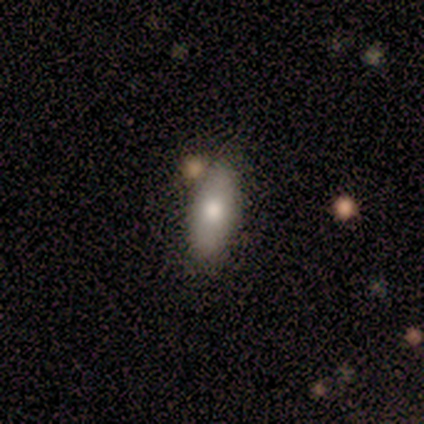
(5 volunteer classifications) This appears to be a smooth galaxy with no disk features (80%) that is in between round and cigar-shaped (100%). Merging: none (100%).